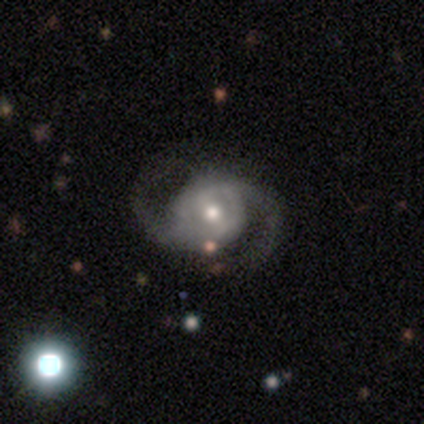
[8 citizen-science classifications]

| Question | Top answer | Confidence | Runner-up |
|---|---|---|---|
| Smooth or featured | featured or disk | 88% | star or artifact (12%) |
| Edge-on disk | no | 100% | — |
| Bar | no | 43% | strong (29%) |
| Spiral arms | yes | 100% | — |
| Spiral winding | medium | 57% | loose (29%) |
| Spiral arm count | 2 | 100% | — |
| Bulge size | small | 43% | large (29%) |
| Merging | none | 71% | major disturbance (29%) |